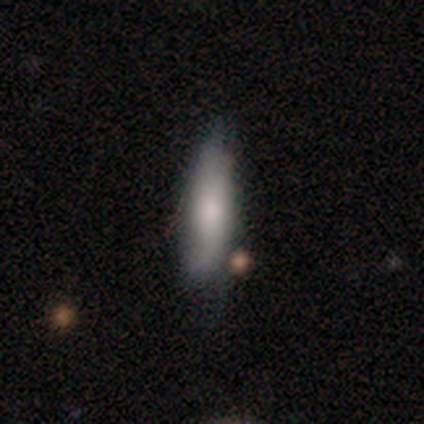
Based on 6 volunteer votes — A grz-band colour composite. It shows a smooth galaxy with no disk features (67%) that is cigar-shaped (75%). Merging: none (50%, tied with minor disturbance).